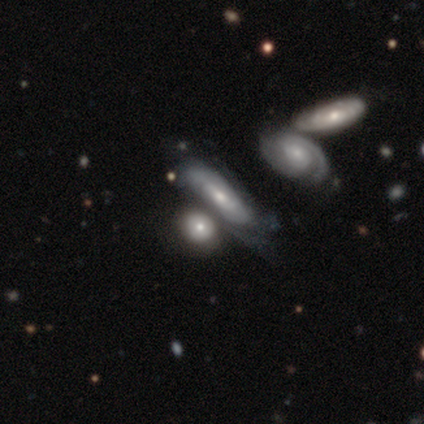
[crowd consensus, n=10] Volunteers were most divided on "smooth or featured" (2-way tie): smooth: 40%, featured or disk: 40%, star or artifact: 20%. More confident: merging — none (62%); how rounded — cigar-shaped (50%).